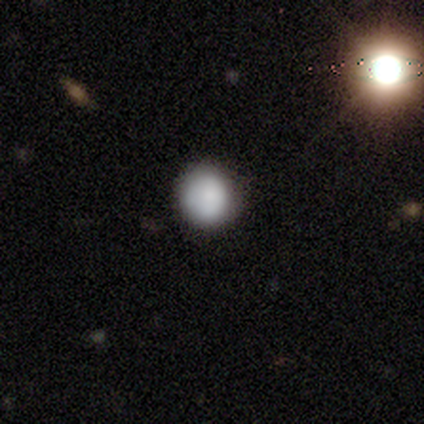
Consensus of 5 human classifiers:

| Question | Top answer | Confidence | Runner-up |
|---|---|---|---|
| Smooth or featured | smooth | 100% | — |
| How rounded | round | 100% | — |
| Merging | none | 100% | — |